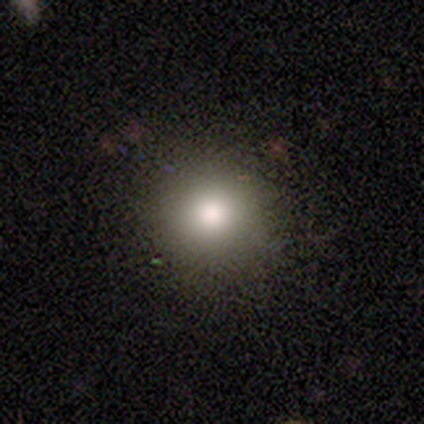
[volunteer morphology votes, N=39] Q: Smooth or featured?
A: smooth (77%); runner-up: featured or disk (13%)
Q: How rounded?
A: round (93%); runner-up: in between (3%)
Q: Merging?
A: none (89%); runner-up: minor disturbance (11%)